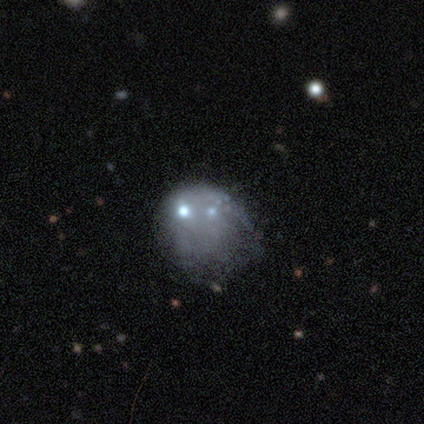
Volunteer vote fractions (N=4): This appears to be a featured or disk galaxy (50%) with no bar (100%), no spiral arms (100%) and a small central bulge (100%). Merging: major disturbance (67%).